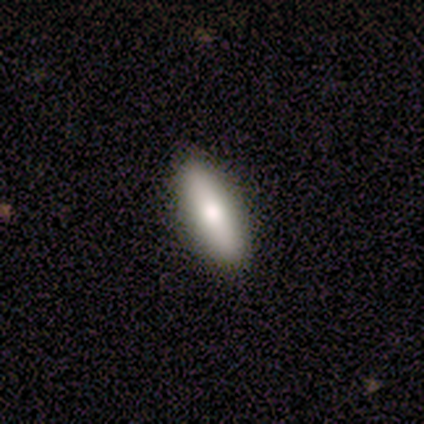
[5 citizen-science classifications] Smooth or featured? 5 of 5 (100%) said smooth. How rounded? 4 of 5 (80%) said in between. Merging? 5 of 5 (100%) said none.